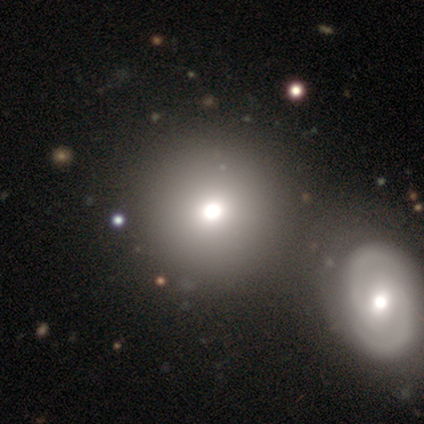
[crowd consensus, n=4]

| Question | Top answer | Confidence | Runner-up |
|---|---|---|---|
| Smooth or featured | smooth | 75% | featured or disk (25%) |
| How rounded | round | 100% | — |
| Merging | none | 100% | — |